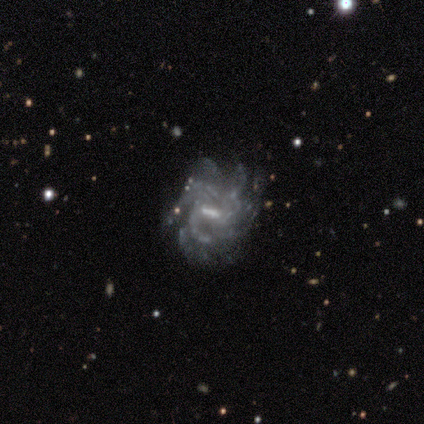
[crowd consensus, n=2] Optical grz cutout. It shows a featured or disk galaxy (100%) with a weak bar (50%, tied with no), 2 (50%, tied with 4) tight (50%, tied with medium) spiral arms (100%) and a small central bulge (100%). Merging: none (100%).